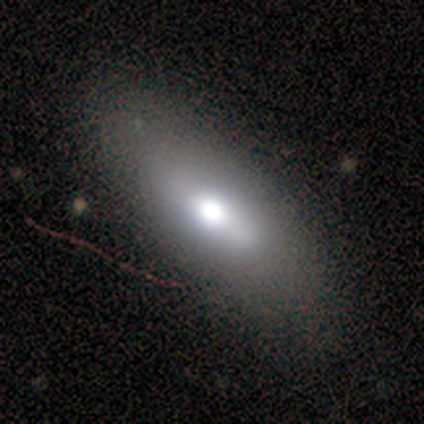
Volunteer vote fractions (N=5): Morphology: type=smooth (60%); roundness=in between (100%); merging=none (100%).